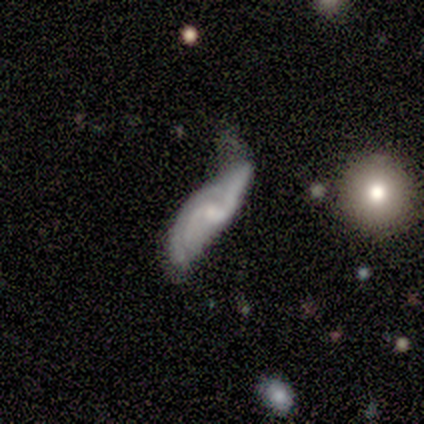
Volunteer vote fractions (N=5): smooth_or_featured: featured or disk (p=1.00)
disk_edge_on: no (p=1.00)
bar: weak (p=0.40) [tied with: no p=0.40]
has_spiral_arms: yes (p=1.00)
spiral_winding: loose (p=0.80) [alt: tight p=0.20]
spiral_arm_count: 2 (p=1.00)
bulge_size: moderate (p=0.40) [tied with: small p=0.40]
merging: none (p=0.40) [alt: minor disturbance p=0.20]